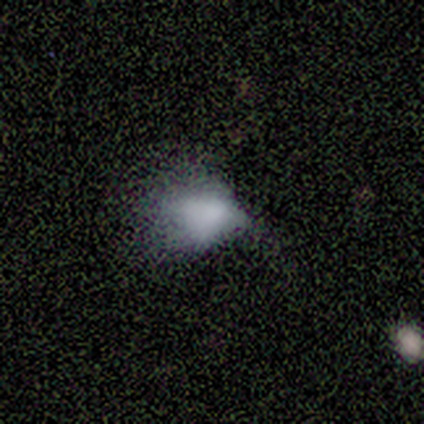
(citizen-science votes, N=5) Q: Smooth or featured?
A: smooth (80%); runner-up: featured or disk (20%)
Q: How rounded?
A: round (50%); tied with: in between (50%)
Q: Merging?
A: major disturbance (60%); runner-up: none (20%)